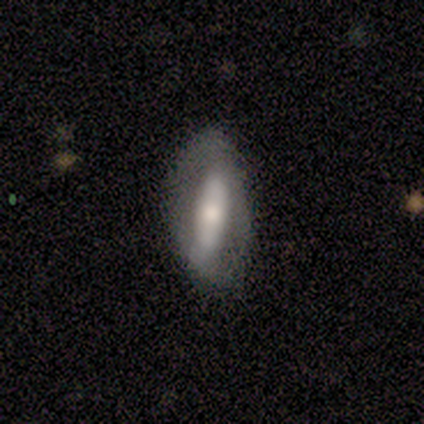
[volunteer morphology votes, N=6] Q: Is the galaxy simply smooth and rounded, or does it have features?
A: featured or disk — 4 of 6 (67%).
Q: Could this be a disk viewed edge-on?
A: no — 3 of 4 (75%).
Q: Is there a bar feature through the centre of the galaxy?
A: strong — 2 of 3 (67%).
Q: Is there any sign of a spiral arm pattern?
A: no — 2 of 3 (67%).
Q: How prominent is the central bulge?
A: small — 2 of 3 (67%).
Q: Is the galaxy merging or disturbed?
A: none — 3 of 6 (50%).